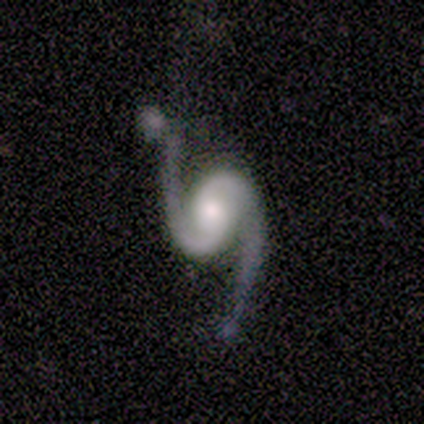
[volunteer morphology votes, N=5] type=featured or disk (100%); edge-on=no (100%); bar=no (100%); spiral arms=yes (100%); winding=loose (80%); arm count=2 (100%); bulge=moderate (80%); merging=none (80%).